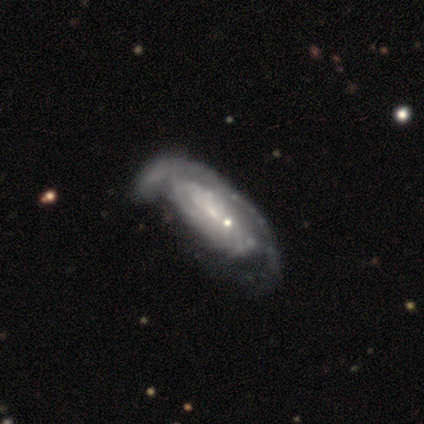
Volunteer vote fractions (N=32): This appears to be a featured or disk galaxy (69%) with no bar (76%), tight (83%) spiral arms (86%) and a small central bulge (86%). Merging: minor disturbance (32%).